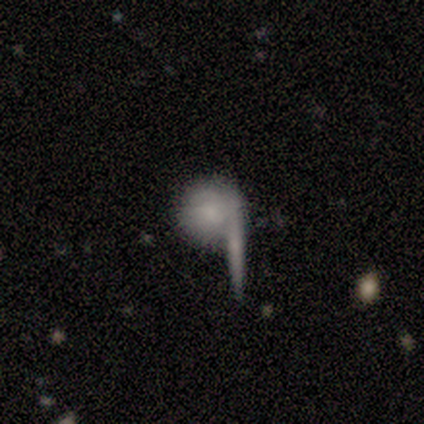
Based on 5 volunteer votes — A smooth galaxy with no disk features (100%) that is round (100%). Merging: none (60%).